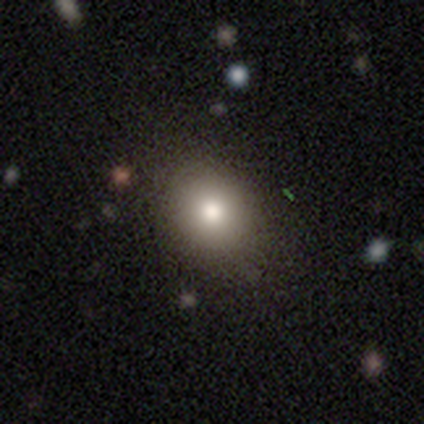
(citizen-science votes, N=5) Smooth or featured?
  - smooth: 100% *
  - featured or disk: 0%
  - star or artifact: 0%
How rounded?
  - round: 100% *
  - in between: 0%
  - cigar-shaped: 0%
Merging?
  - none: 80% *
  - minor disturbance: 20%
  - major disturbance: 0%
  - merger: 0%